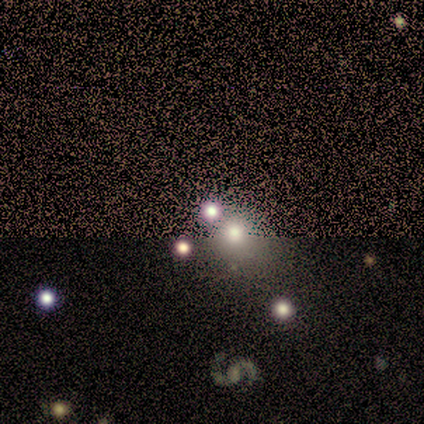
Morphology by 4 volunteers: Q: Smooth or featured?
A: smooth (75%); runner-up: star or artifact (25%)
Q: How rounded?
A: round (100%)
Q: Merging?
A: none (67%); runner-up: merger (33%)